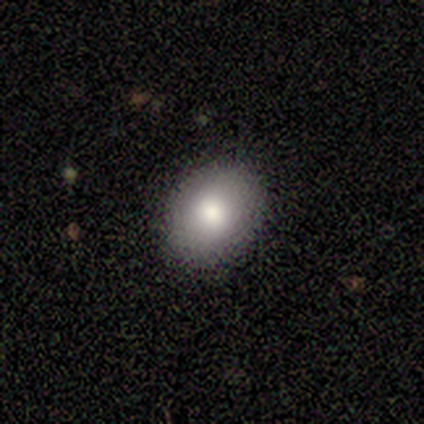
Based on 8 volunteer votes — Volunteers were most divided on "smooth or featured": smooth: 75%, featured or disk: 12%, star or artifact: 12%. More confident: merging — none (86%); how rounded — in between (83%).